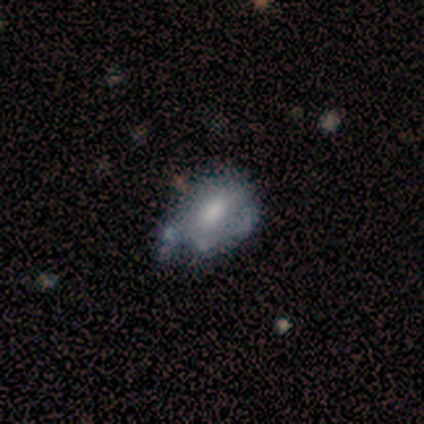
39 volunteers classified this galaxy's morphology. Smooth or featured: smooth — 51% (featured or disk — 44%)
How rounded: in between — 80% (round — 20%)
Merging: minor disturbance — 38% (none — 35%)